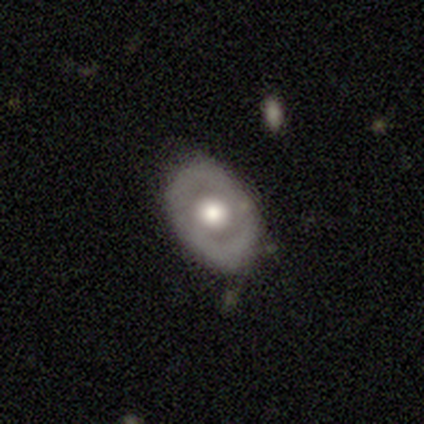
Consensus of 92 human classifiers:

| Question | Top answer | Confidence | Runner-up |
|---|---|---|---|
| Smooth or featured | featured or disk | 54% | smooth (37%) |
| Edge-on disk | no | 92% | yes (8%) |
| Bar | no | 87% | weak (11%) |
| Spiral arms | no | 91% | yes (9%) |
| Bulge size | moderate | 57% | large (30%) |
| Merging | none | 70% | minor disturbance (25%) |